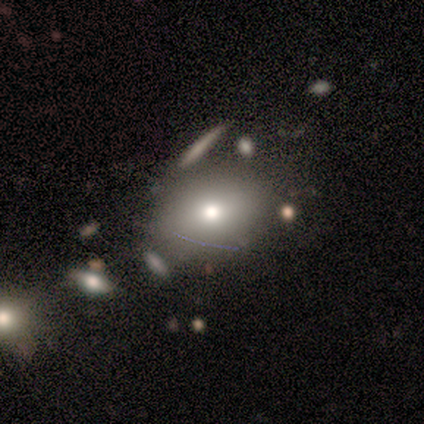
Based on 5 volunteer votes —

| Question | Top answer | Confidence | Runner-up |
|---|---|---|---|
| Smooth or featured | smooth | 60% | featured or disk (40%) |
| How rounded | in between | 67% | round (33%) |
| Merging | none | 80% | major disturbance (20%) |